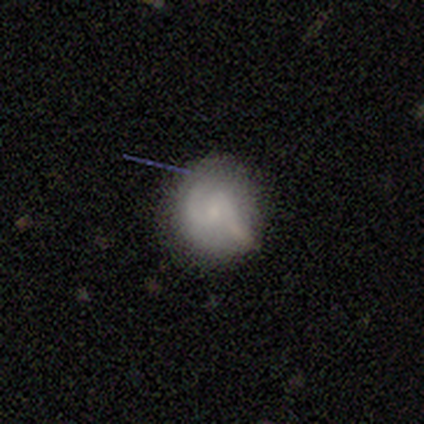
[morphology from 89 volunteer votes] smooth_or_featured: smooth (p=0.46) [alt: featured or disk p=0.45]
how_rounded: round (p=0.93) [alt: in between p=0.07]
merging: none (p=0.63) [alt: minor disturbance p=0.27]